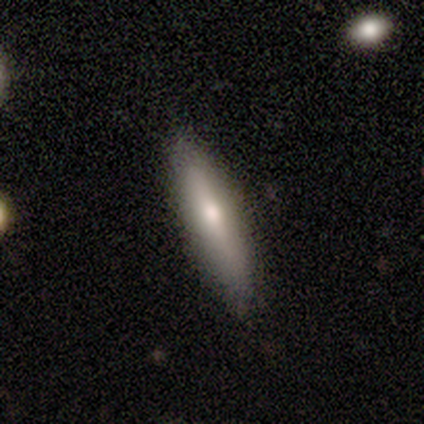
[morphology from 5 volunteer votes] smooth_or_featured: smooth (p=0.60) [alt: featured or disk p=0.40]
how_rounded: cigar-shaped (p=0.67) [alt: in between p=0.33]
merging: none (p=1.00)